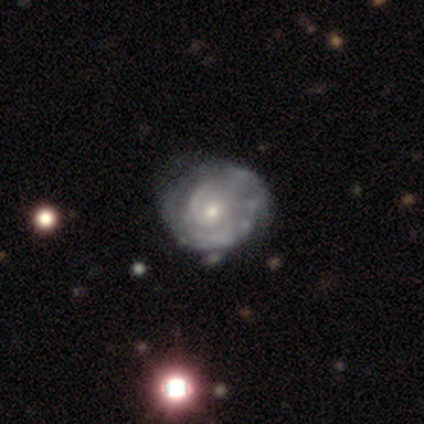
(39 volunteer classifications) Q: Smooth or featured?
A: featured or disk (85%); runner-up: smooth (8%)
Q: Edge-on disk?
A: no (97%); runner-up: yes (3%)
Q: Bar?
A: no (72%); runner-up: weak (28%)
Q: Spiral arms?
A: yes (84%); runner-up: no (16%)
Q: Spiral winding?
A: tight (89%); runner-up: medium (7%)
Q: Spiral arm count?
A: can't tell (37%); runner-up: 2 (33%)
Q: Bulge size?
A: small (66%); runner-up: moderate (34%)
Q: Merging?
A: none (39%); runner-up: minor disturbance (19%)